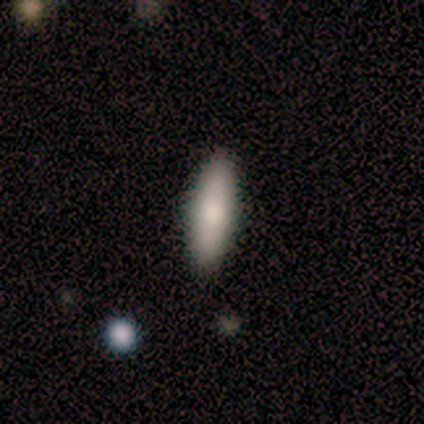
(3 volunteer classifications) A smooth galaxy with no disk features (67%) that is in between round and cigar-shaped (50%, tied with cigar-shaped). Merging: none (100%).